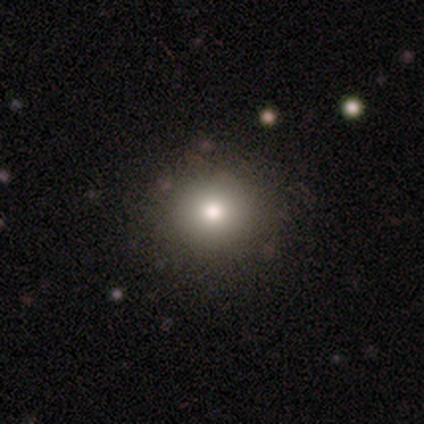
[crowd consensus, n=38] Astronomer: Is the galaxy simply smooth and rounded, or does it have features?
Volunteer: smooth — 68%.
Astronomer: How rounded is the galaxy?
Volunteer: round — 100%.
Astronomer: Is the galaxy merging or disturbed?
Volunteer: none — 90%.